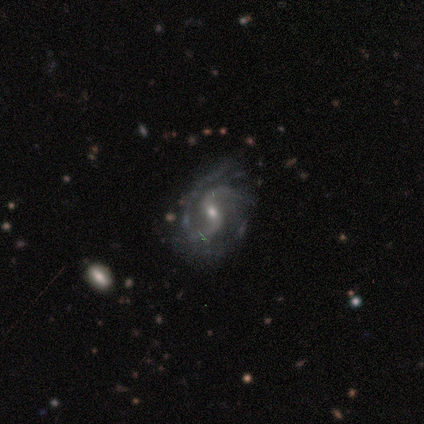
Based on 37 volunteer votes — Smooth or featured: featured or disk — 95% (star or artifact — 5%)
Edge-on disk: no — 100%
Bar: weak — 80% (strong — 11%)
Spiral arms: yes — 100%
Spiral winding: loose — 46% (medium — 40%)
Spiral arm count: 2 — 80% (can't tell — 14%)
Bulge size: small — 69% (moderate — 29%)
Merging: none — 60% (minor disturbance — 23%)